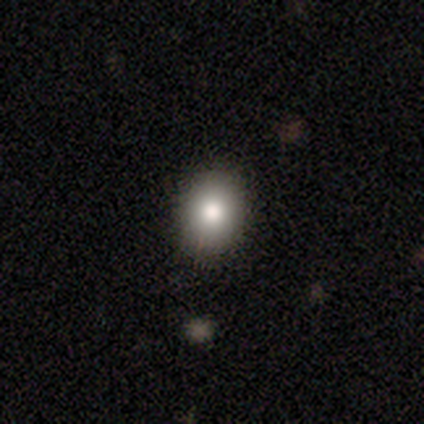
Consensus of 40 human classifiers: Smooth or featured? 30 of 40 (75%) said smooth. How rounded? 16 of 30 (53%) said round. Merging? 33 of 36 (92%) said none.